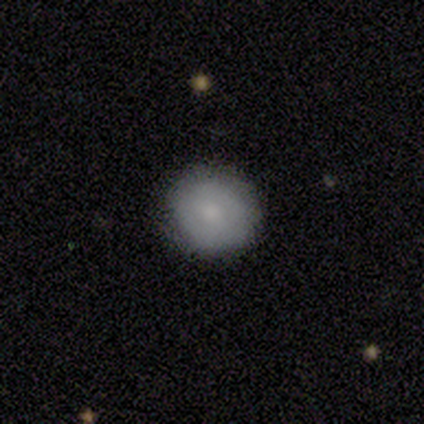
A smooth galaxy with no disk features (100%) that is round (100%). Merging: none (100%).